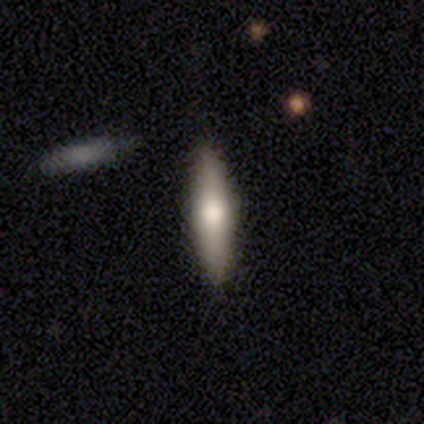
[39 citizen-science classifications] Q: Smooth or featured?
A: smooth (69%); runner-up: featured or disk (26%)
Q: How rounded?
A: cigar-shaped (74%); runner-up: in between (22%)
Q: Merging?
A: none (78%); runner-up: minor disturbance (19%)